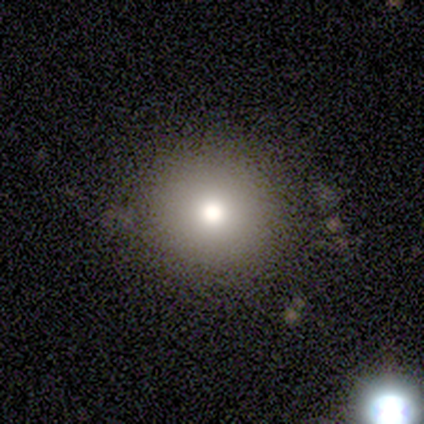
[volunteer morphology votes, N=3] Volunteers were most divided on "how rounded": round: 67%, in between: 33%, cigar-shaped: 0%. More confident: smooth or featured — smooth (100%); merging — minor disturbance (67%).